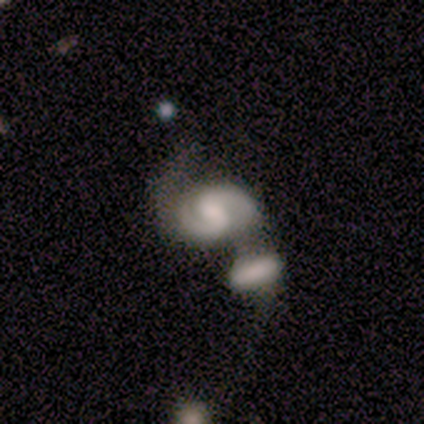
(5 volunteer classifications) Morphology: type=featured or disk (100%); edge-on=no (80%); bar=weak (50%, tied with no); spiral arms=yes (100%); winding=medium (50%); arm count=2 (75%); bulge=small (50%); merging=merger (60%).